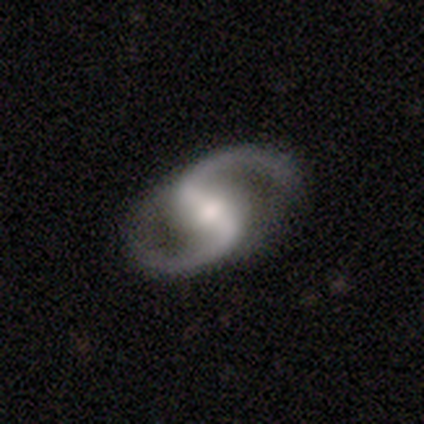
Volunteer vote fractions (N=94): A featured or disk galaxy (99%) with a strong bar (57%), 2 (99%) medium (54%) spiral arms (100%) and a moderate central bulge (63%). Merging: none (91%).